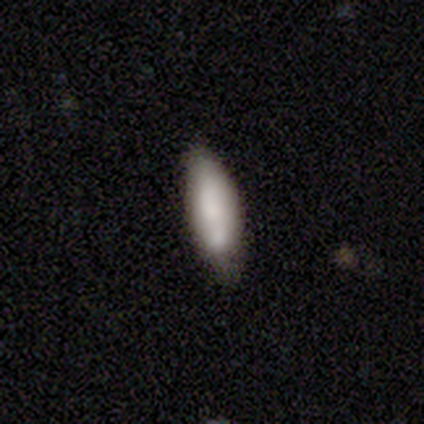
smooth-or-featured: smooth: 60% | featured or disk: 40% | star or artifact: 0%
  how-rounded: in between: 67% | cigar-shaped: 33% | round: 0%
  merging: none: 80% | minor disturbance: 20% | major disturbance: 0% | merger: 0%